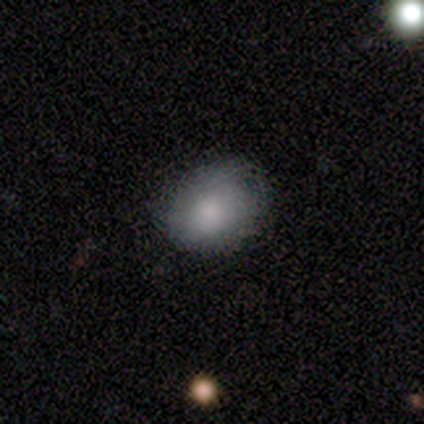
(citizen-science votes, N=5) Smooth or featured? 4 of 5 (80%) said smooth. How rounded? 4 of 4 (100%) said round. Merging? 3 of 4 (75%) said none.